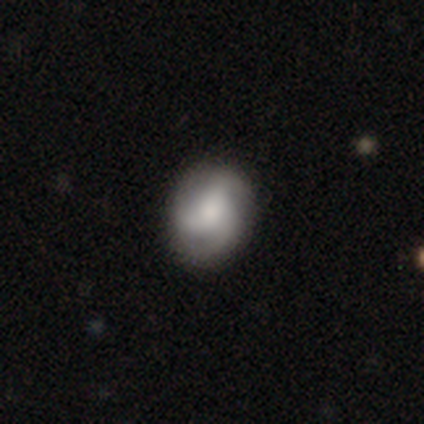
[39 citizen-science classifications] This appears to be a featured or disk galaxy (56%) with no bar (76%), 3 (90%) loose (50%) spiral arms (95%) and a large central bulge (38%). Merging: none (95%).